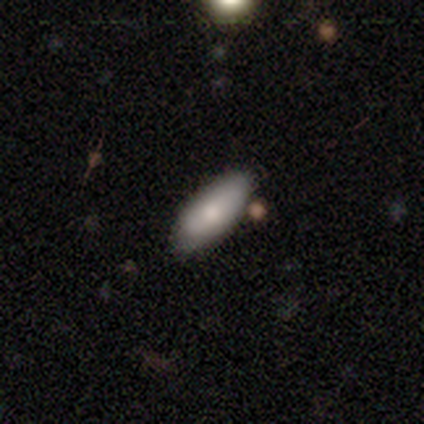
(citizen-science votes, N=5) smooth_or_featured: smooth (p=0.60) [alt: featured or disk p=0.40]
how_rounded: in between (p=0.67) [alt: cigar-shaped p=0.33]
merging: none (p=0.60) [alt: minor disturbance p=0.20]